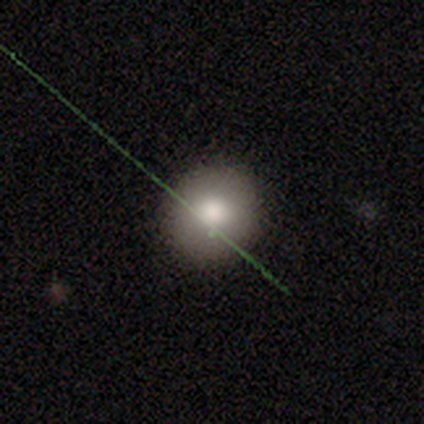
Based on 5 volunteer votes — Smooth or featured?
  - smooth: 80% *
  - star or artifact: 20%
  - featured or disk: 0%
How rounded?
  - round: 100% *
  - in between: 0%
  - cigar-shaped: 0%
Merging?
  - none: 100% *
  - minor disturbance: 0%
  - major disturbance: 0%
  - merger: 0%